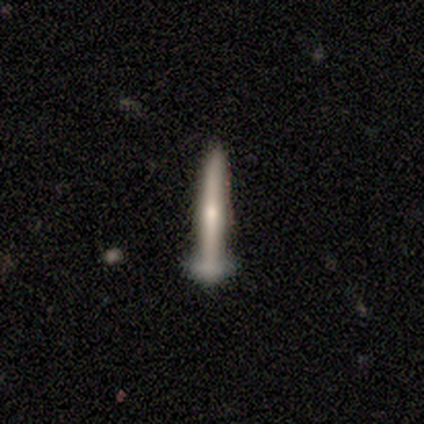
A featured or disk galaxy (80%) viewed edge-on (100%) with a rounded central bulge (75%).

Vote fractions:
- Smooth or featured? featured or disk: 80% / smooth: 20% / star or artifact: 0%
- Edge-on disk? yes: 100% / no: 0%
- Edge-on bulge? rounded: 75% / none: 25% / boxy: 0%
- Merging? none: 60% / minor disturbance: 40% / major disturbance: 0% / merger: 0%